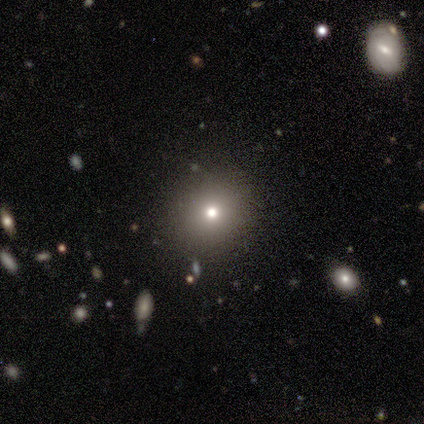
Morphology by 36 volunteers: smooth-or-featured: smooth: 69% | star or artifact: 25% | featured or disk: 6%
  how-rounded: round: 96% | in between: 4% | cigar-shaped: 0%
  merging: none: 89% | minor disturbance: 7% | major disturbance: 4% | merger: 0%